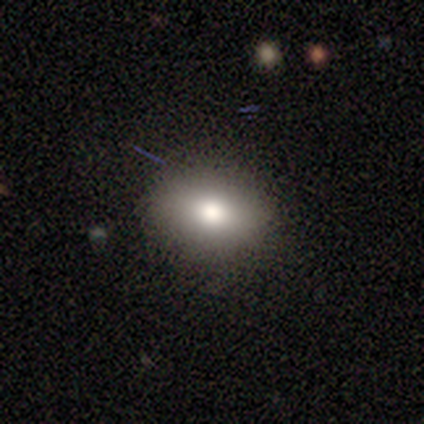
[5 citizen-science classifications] This appears to be a smooth galaxy with no disk features (60%) that is in between round and cigar-shaped (67%). Merging: none (100%).